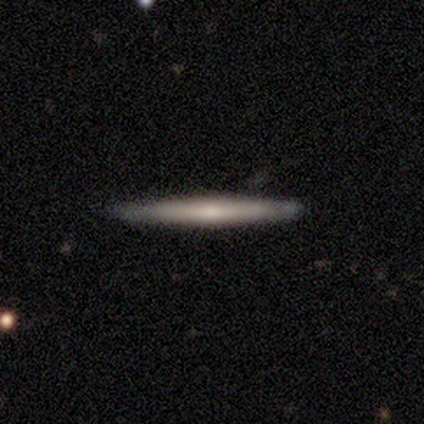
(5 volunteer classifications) Q: Smooth or featured?
A: smooth (60%); runner-up: featured or disk (40%)
Q: How rounded?
A: cigar-shaped (100%)
Q: Merging?
A: none (100%)